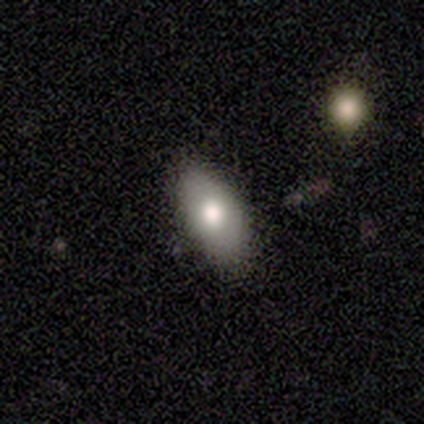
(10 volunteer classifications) Q: Smooth or featured?
A: smooth (70%); runner-up: featured or disk (20%)
Q: How rounded?
A: in between (100%)
Q: Merging?
A: none (89%); runner-up: minor disturbance (11%)